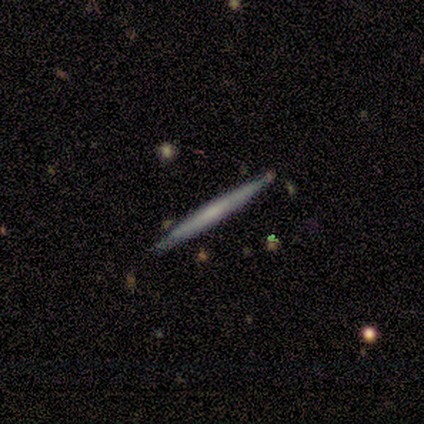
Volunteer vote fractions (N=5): Smooth or featured?
  - featured or disk: 60% *
  - smooth: 40%
  - star or artifact: 0%
Edge-on disk?
  - yes: 100% *
  - no: 0%
Edge-on bulge?
  - none: 100% *
  - boxy: 0%
  - rounded: 0%
Merging?
  - none: 100% *
  - minor disturbance: 0%
  - major disturbance: 0%
  - merger: 0%